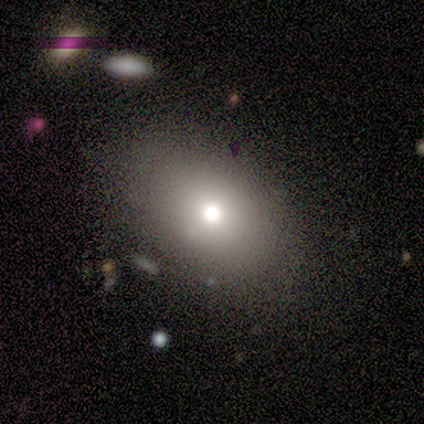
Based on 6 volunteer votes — Smooth or featured? smooth (50%, tied with star or artifact)
How rounded? in between (100%)
Merging? none (100%)